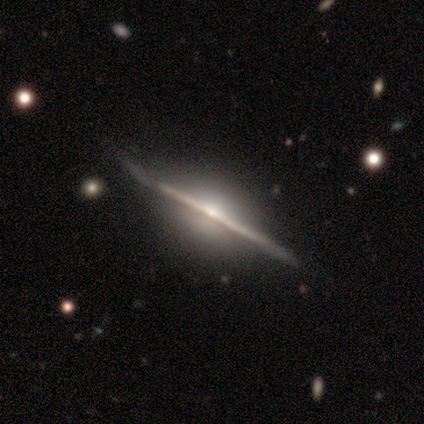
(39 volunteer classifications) This is clearly a featured or disk galaxy (100%). It is clearly viewed edge-on (95%). Edge-on bulge: clearly rounded (84%). Merging: possibly none (56%).